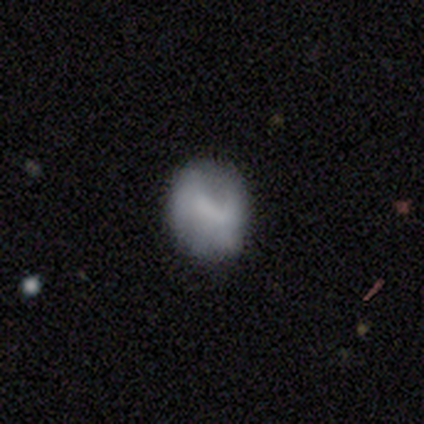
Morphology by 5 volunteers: smooth_or_featured: smooth (p=0.40) [tied with: featured or disk p=0.40]
how_rounded: round (p=0.50) [tied with: in between p=0.50]
merging: none (p=0.50) [alt: minor disturbance p=0.25]